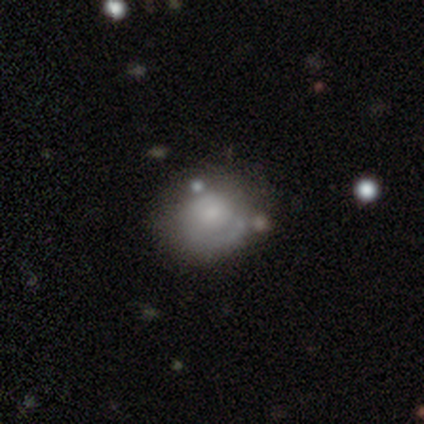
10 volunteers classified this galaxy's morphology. type=smooth (50%); roundness=round (60%); merging=minor disturbance (56%).